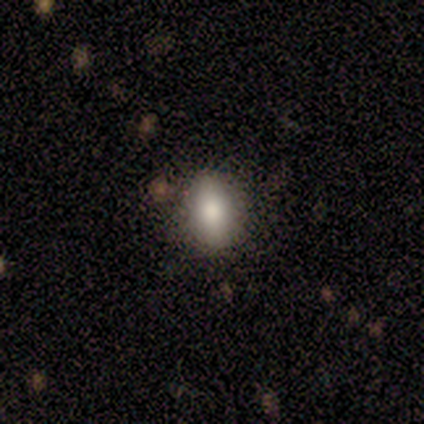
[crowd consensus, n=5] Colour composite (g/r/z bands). It shows a smooth galaxy with no disk features (80%) that is in between round and cigar-shaped (100%). Merging: none (100%).